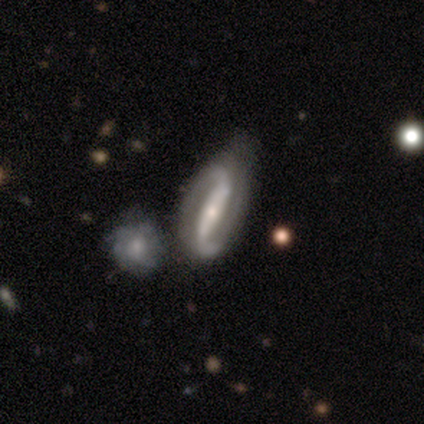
Smooth or featured: featured or disk — 92% (smooth — 5%)
Edge-on disk: no — 92% (yes — 8%)
Bar: strong — 79% (weak — 15%)
Spiral arms: yes — 94% (no — 6%)
Spiral winding: loose — 74% (tight — 16%)
Spiral arm count: 2 — 90% (can't tell — 6%)
Bulge size: small — 61% (moderate — 33%)
Merging: none — 34% (minor disturbance — 29%)